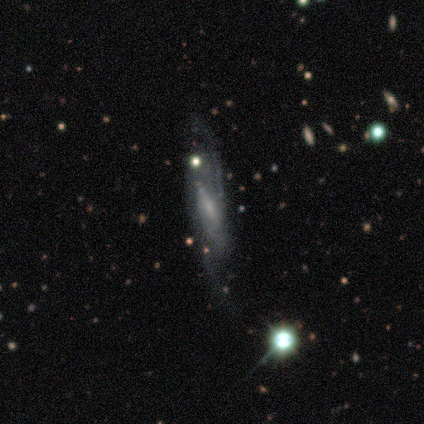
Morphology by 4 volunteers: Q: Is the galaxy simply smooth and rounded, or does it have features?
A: featured or disk — 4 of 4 (100%).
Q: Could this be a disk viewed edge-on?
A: yes — 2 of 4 (50%, tied with no).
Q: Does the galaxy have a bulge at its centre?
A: boxy — 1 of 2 (50%, tied with rounded).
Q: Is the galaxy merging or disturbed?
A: none — 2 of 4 (50%).